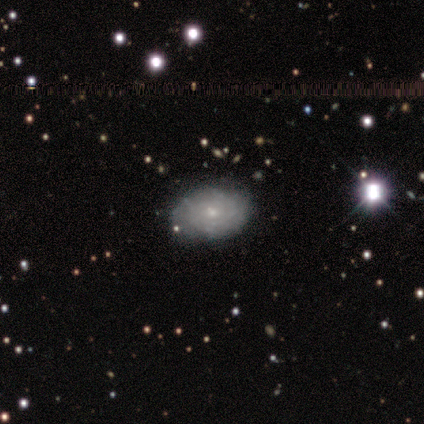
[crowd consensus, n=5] Overall: featured or disk (80%). Edge-on disk: no (100%). Bar: no (100%). Spiral arms: yes (100%). Spiral arm count: can't tell (100%). Spiral winding: tight (75%). Bulge size: moderate (50%, tied with small). Merging: none (80%).